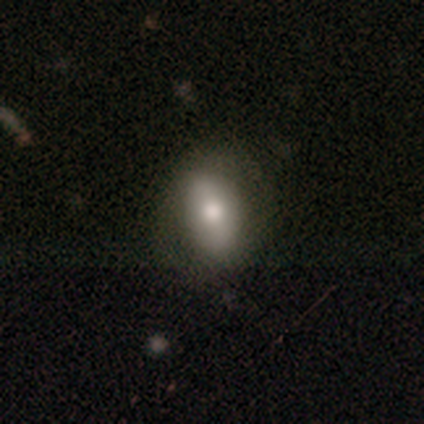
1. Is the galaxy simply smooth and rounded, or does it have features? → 70% smooth, 22% featured or disk, 8% star or artifact.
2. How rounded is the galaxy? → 89% in between, 11% round, 0% cigar-shaped.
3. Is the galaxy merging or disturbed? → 70% none, 27% minor disturbance, 3% major disturbance, 0% merger.